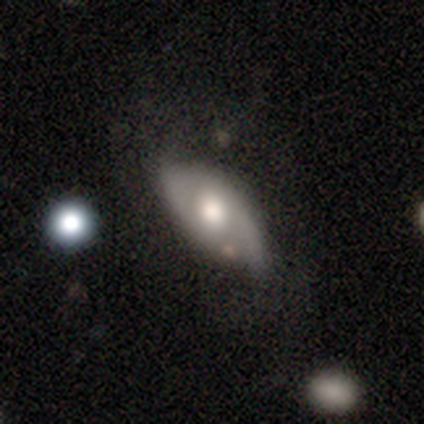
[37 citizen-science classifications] Smooth or featured? 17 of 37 (46%) said smooth. How rounded? 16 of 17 (94%) said in between. Merging? 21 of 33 (64%) said none.